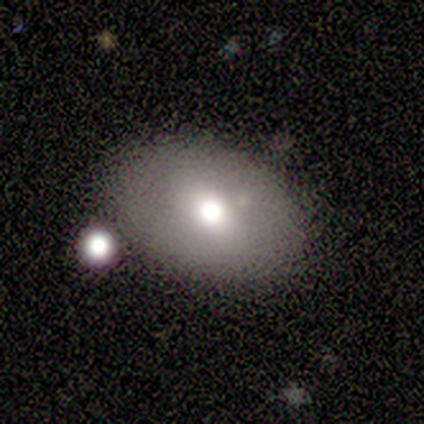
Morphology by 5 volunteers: smooth 80%, star or artifact 20%, featured or disk 0%. Down the decision tree: how rounded — in between (75%); merging — none (75%).